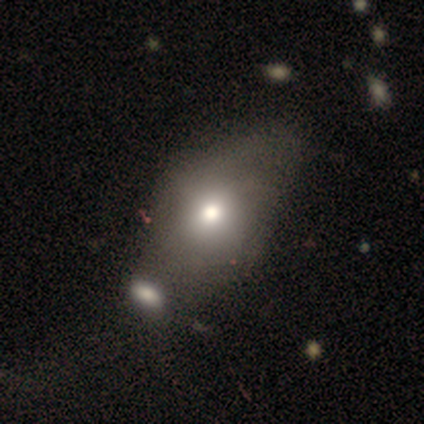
smooth 40% (tied), star or artifact 40% (tied), featured or disk 20%. Down the decision tree: how rounded — round (50%, tied with in between); merging — merger (67%).